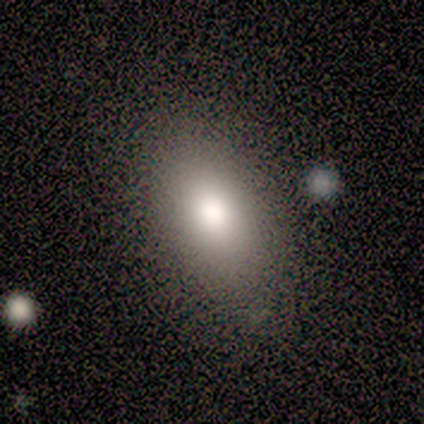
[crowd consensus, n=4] smooth-or-featured: smooth: 75% | featured or disk: 25% | star or artifact: 0%
  how-rounded: in between: 100% | round: 0% | cigar-shaped: 0%
  merging: none: 100% | minor disturbance: 0% | major disturbance: 0% | merger: 0%